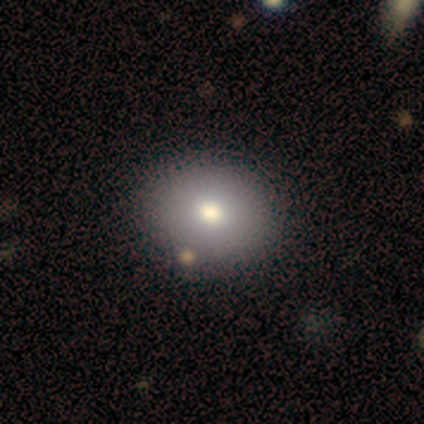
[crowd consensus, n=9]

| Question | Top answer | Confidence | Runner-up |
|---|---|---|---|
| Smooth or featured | smooth | 67% | star or artifact (22%) |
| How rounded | round | 50% | tied: in between (50%) |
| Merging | none | 86% | minor disturbance (14%) |